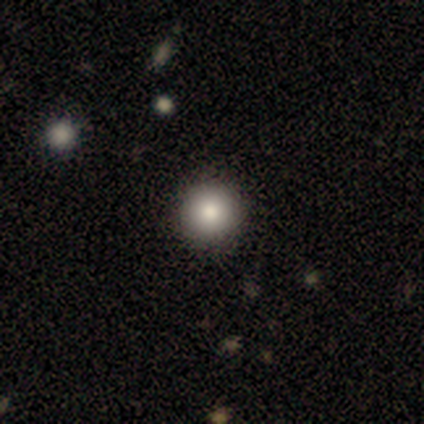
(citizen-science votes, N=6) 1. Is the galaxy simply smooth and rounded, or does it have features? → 100% smooth, 0% featured or disk, 0% star or artifact.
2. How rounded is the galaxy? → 100% round, 0% in between, 0% cigar-shaped.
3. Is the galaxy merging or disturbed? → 83% none, 17% minor disturbance, 0% major disturbance, 0% merger.